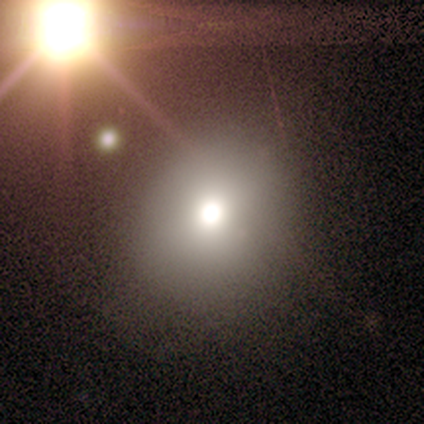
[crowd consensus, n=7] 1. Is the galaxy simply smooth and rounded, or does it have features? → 43% smooth (tied), 43% star or artifact (tied), 14% featured or disk.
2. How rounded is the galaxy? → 100% round, 0% in between, 0% cigar-shaped.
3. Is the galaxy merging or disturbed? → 100% none, 0% minor disturbance, 0% major disturbance, 0% merger.